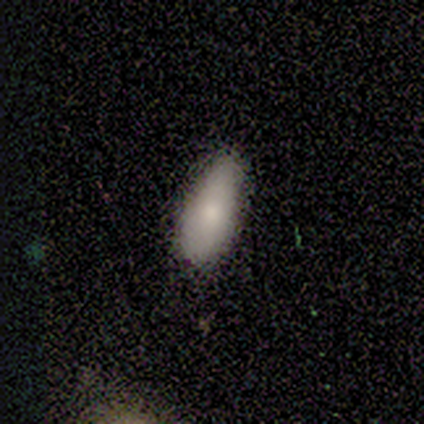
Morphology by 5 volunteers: type=smooth (100%); roundness=in between (100%); merging=none (40%, tied with minor disturbance).